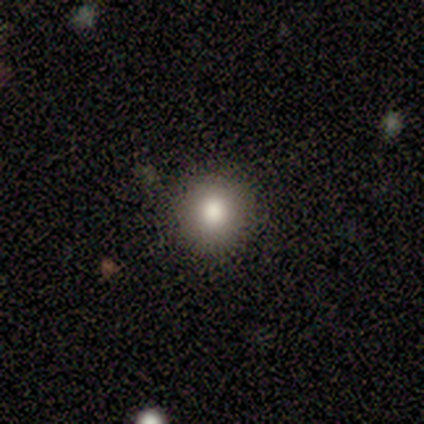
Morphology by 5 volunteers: type=smooth (80%); roundness=round (100%); merging=none (100%).